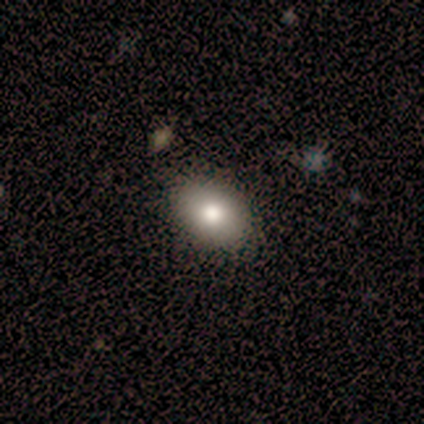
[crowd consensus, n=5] smooth-or-featured: smooth: 80% | featured or disk: 20% | star or artifact: 0%
  how-rounded: in between: 75% | round: 25% | cigar-shaped: 0%
  merging: none: 80% | merger: 20% | minor disturbance: 0% | major disturbance: 0%